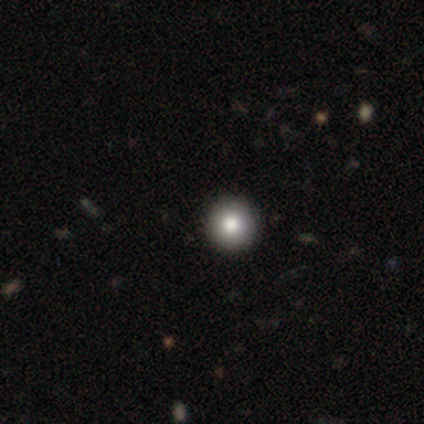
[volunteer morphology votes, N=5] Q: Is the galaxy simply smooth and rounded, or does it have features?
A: smooth — 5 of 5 (100%).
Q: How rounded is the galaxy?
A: round — 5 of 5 (100%).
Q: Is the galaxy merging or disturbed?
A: none — 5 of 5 (100%).